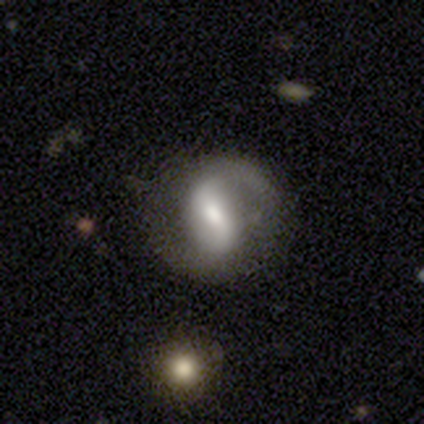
smooth_or_featured: featured or disk (p=0.84) [alt: smooth p=0.13]
disk_edge_on: no (p=0.97) [alt: yes p=0.03]
bar: weak (p=0.48) [alt: strong p=0.32]
has_spiral_arms: yes (p=0.87) [alt: no p=0.13]
spiral_winding: loose (p=0.67) [alt: medium p=0.22]
spiral_arm_count: 2 (p=0.96) [alt: 1 p=0.04]
bulge_size: moderate (p=0.65) [alt: small p=0.26]
merging: none (p=0.92) [alt: major disturbance p=0.05]